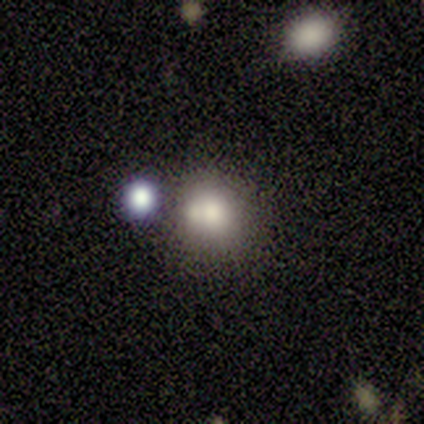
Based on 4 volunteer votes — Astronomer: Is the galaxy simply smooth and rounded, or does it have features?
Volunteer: smooth — 100%.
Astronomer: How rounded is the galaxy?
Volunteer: round — 75%.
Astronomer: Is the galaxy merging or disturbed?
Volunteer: merger — 50%.